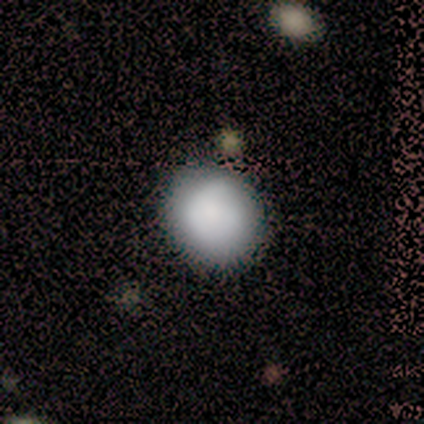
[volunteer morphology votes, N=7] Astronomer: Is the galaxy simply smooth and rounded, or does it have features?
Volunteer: smooth — 86%.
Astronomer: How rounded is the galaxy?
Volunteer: round — 50%, tied with in between at 50%.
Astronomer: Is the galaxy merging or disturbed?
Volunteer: none — 83%.